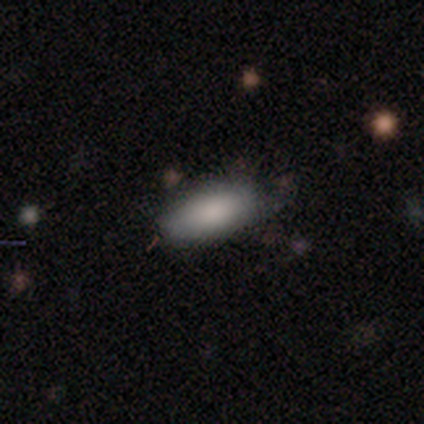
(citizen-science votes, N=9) Smooth or featured? 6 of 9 (67%) said smooth. How rounded? 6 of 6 (100%) said in between. Merging? 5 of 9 (56%) said none.